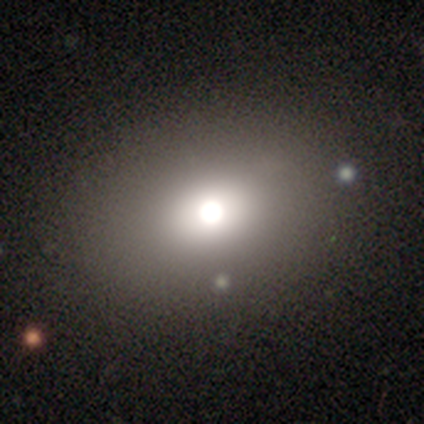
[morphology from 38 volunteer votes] Smooth or featured?
  - smooth: 68% *
  - star or artifact: 18%
  - featured or disk: 13%
How rounded?
  - in between: 65% *
  - round: 35%
  - cigar-shaped: 0%
Merging?
  - none: 84% *
  - minor disturbance: 0%
  - major disturbance: 0%
  - merger: 0%